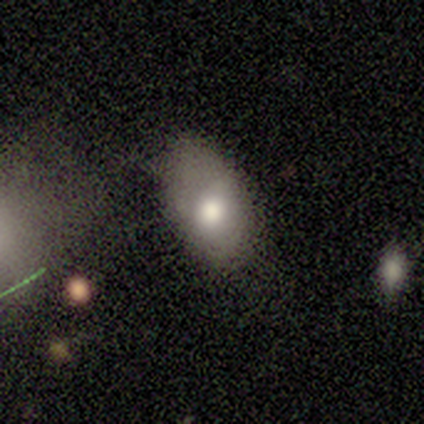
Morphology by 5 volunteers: A featured or disk galaxy (60%) with no bar (100%), no spiral arms (100%) and a moderate central bulge (67%). Merging: minor disturbance (50%).